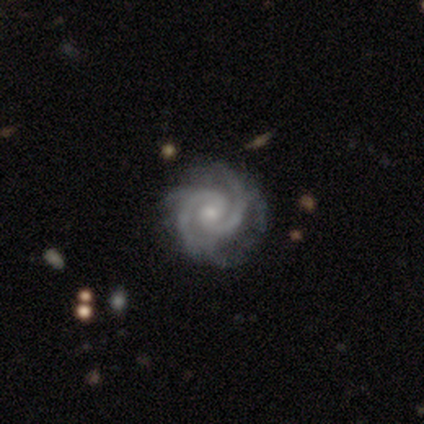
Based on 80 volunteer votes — Smooth or featured? 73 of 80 (91%) said featured or disk. Edge-on disk? 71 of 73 (97%) said no. Bar? 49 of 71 (69%) said no. Spiral arms? 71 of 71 (100%) said yes. Spiral winding? 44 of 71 (62%) said tight. Spiral arm count? 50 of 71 (70%) said 2. Bulge size? 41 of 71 (58%) said small. Merging? 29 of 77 (38%) said none.